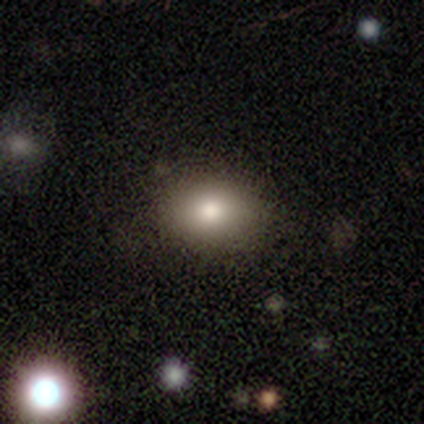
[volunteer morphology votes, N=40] Overall: smooth (82%). How rounded: round (52%; in between 48%). Merging: none (67%).